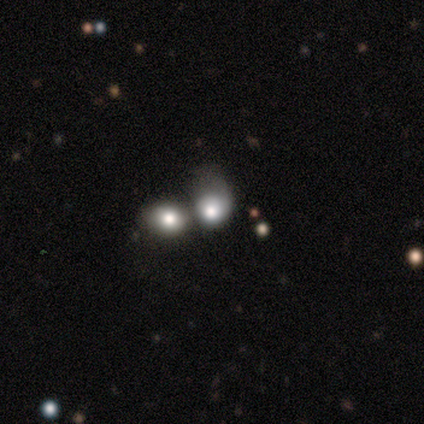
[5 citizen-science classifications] Smooth or featured?
  - smooth: 60% *
  - featured or disk: 40%
  - star or artifact: 0%
How rounded?
  - round: 67% *
  - in between: 33%
  - cigar-shaped: 0%
Merging?
  - merger: 60% *
  - none: 20%
  - major disturbance: 20%
  - minor disturbance: 0%